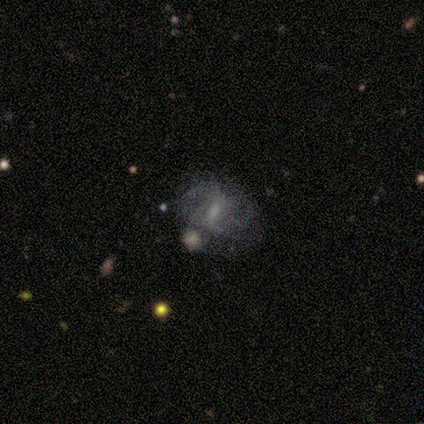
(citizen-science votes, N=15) Overall: featured or disk (93%). Edge-on disk: no (100%). Bar: strong (43%; weak 29%). Spiral arms: yes (79%). Spiral arm count: 2 (55%; 4 18%). Spiral winding: medium (55%; loose 45%). Bulge size: none (43%; small 29%). Merging: none (47%; minor disturbance 27%).